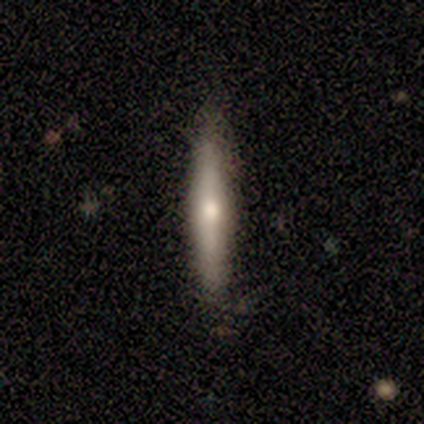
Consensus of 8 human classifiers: Morphology: type=smooth (50%, tied with featured or disk); roundness=cigar-shaped (100%); merging=none (75%).